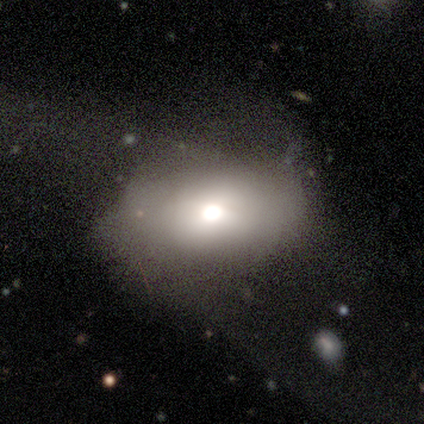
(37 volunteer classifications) smooth 78%, featured or disk 16%, star or artifact 5%. Down the decision tree: how rounded — in between (86%); merging — major disturbance (43%).